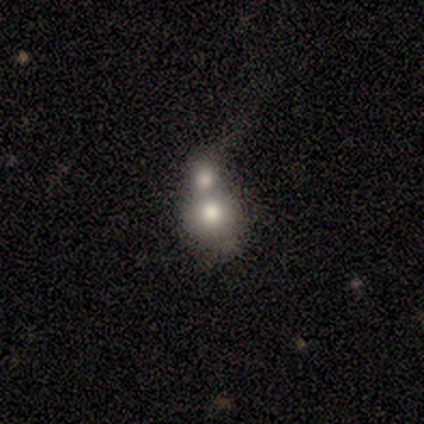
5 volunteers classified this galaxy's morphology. Volunteers were most divided on "smooth or featured" (2-way tie): smooth: 40%, featured or disk: 40%, star or artifact: 20%. More confident: how rounded — round (100%); merging — merger (75%).